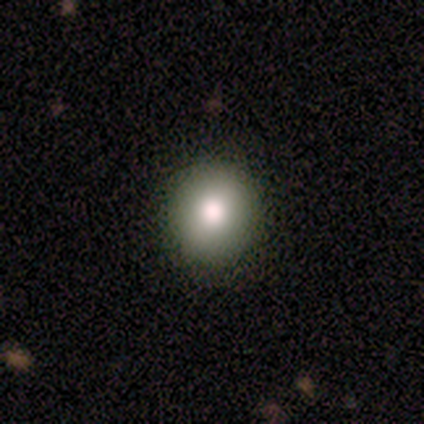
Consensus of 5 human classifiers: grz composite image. It shows a smooth galaxy with no disk features (100%) that is round (100%). Merging: none (80%).